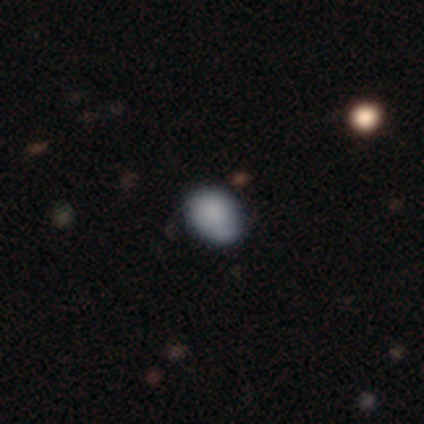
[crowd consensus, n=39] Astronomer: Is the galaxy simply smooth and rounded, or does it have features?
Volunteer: smooth — 77%.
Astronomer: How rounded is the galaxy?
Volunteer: in between — 57% (runner-up: round, 43%).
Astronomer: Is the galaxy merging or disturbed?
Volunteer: none — 70%.